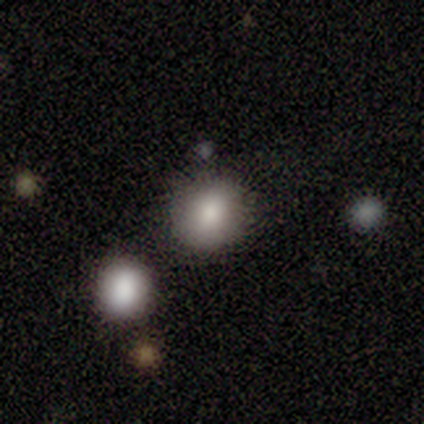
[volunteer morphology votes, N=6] Smooth or featured?
  - smooth: 67% *
  - featured or disk: 17%
  - star or artifact: 17%
How rounded?
  - round: 75% *
  - in between: 25%
  - cigar-shaped: 0%
Merging?
  - none: 80% *
  - minor disturbance: 20%
  - major disturbance: 0%
  - merger: 0%